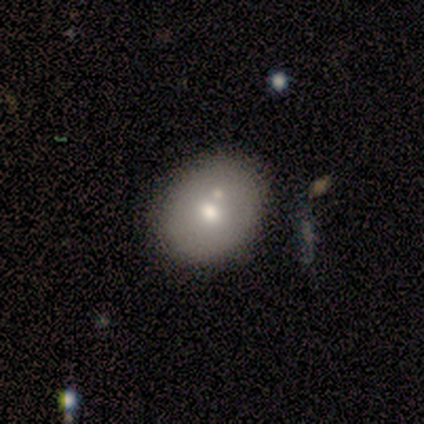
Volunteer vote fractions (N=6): Morphology: type=smooth (100%); roundness=in between (67%); merging=none (67%).